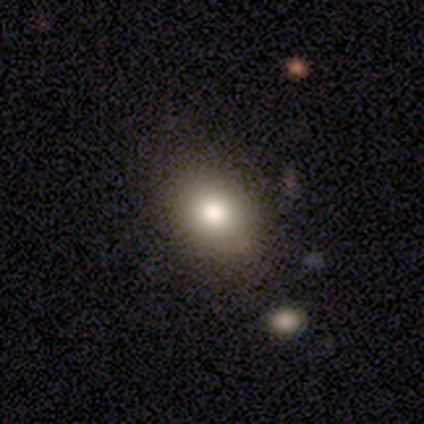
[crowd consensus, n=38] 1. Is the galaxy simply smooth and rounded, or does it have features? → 71% smooth, 18% featured or disk, 11% star or artifact.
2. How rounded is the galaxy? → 52% in between, 44% round, 4% cigar-shaped.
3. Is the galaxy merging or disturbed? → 79% none, 18% minor disturbance, 3% merger, 0% major disturbance.